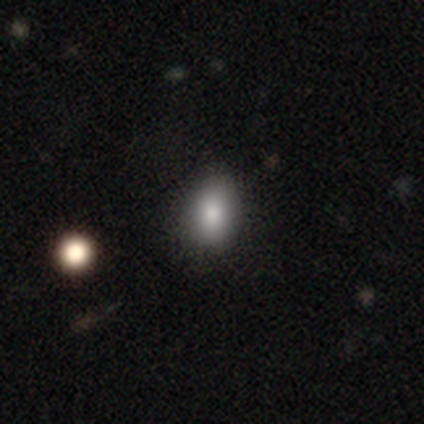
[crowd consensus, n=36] smooth 75%, featured or disk 14%, star or artifact 11%. Down the decision tree: how rounded — in between (74%); merging — none (75%).